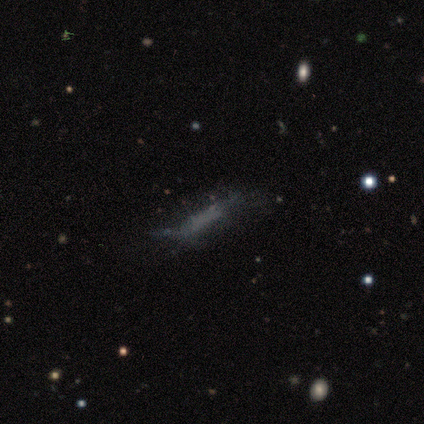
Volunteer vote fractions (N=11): Q: Smooth or featured?
A: smooth (55%); runner-up: featured or disk (45%)
Q: How rounded?
A: cigar-shaped (83%); runner-up: in between (17%)
Q: Merging?
A: none (64%); runner-up: major disturbance (27%)